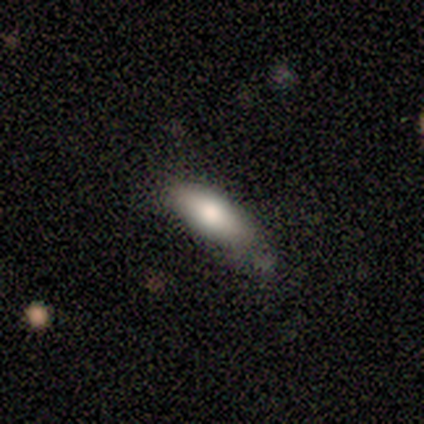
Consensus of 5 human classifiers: Smooth or featured: smooth — 80% (featured or disk — 20%)
How rounded: in between — 75% (cigar-shaped — 25%)
Merging: none — 60% (minor disturbance — 40%)